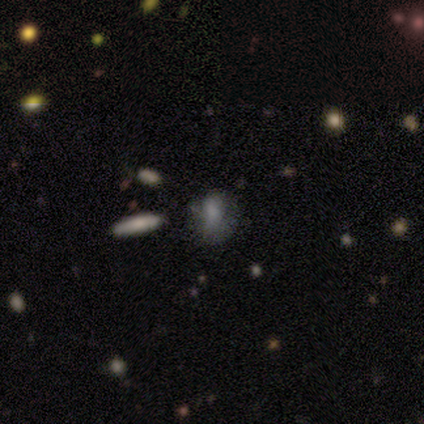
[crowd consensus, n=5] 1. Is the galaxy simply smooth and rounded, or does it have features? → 100% smooth, 0% featured or disk, 0% star or artifact.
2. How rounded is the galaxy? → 60% round, 20% in between, 20% cigar-shaped.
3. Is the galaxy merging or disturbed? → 60% none, 20% minor disturbance, 20% major disturbance, 0% merger.